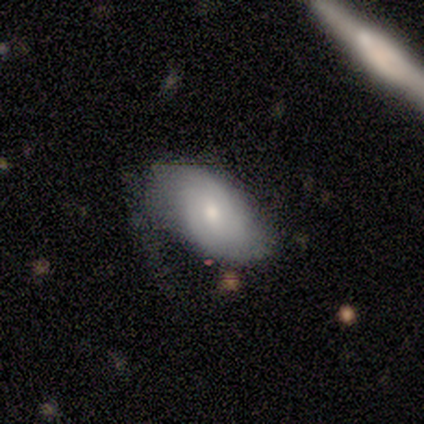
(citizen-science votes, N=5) This appears to be a smooth galaxy with no disk features (80%) that is in between round and cigar-shaped (100%). Merging: none (80%).